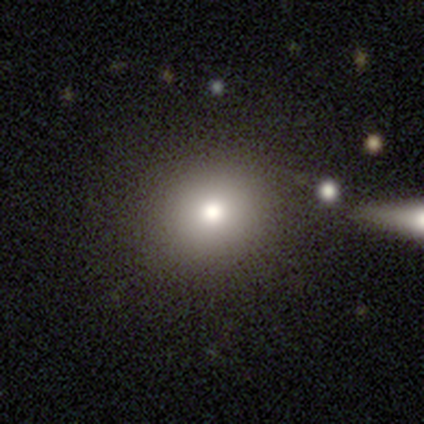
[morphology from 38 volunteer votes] Overall: smooth (84%). How rounded: round (88%). Merging: none (85%).